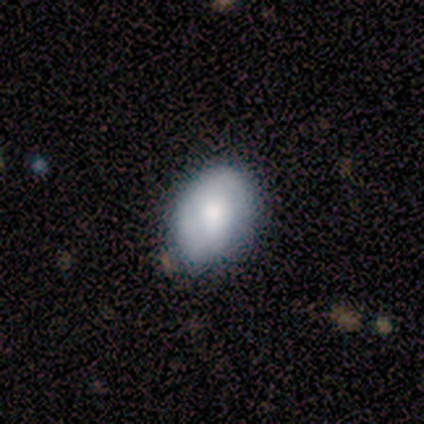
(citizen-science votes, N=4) smooth-or-featured: smooth: 100% | featured or disk: 0% | star or artifact: 0%
  how-rounded: in between: 75% | round: 25% | cigar-shaped: 0%
  merging: none: 100% | minor disturbance: 0% | major disturbance: 0% | merger: 0%